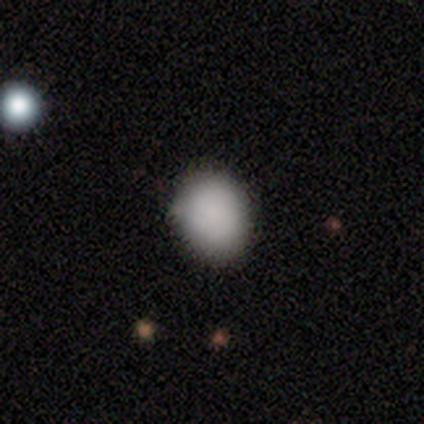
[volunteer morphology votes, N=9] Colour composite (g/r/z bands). It shows a smooth galaxy with no disk features (89%) that is in between round and cigar-shaped (75%). Merging: none (75%).